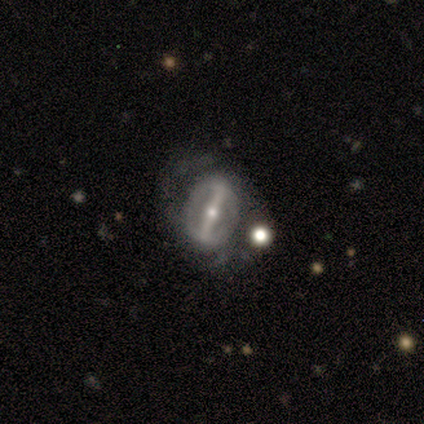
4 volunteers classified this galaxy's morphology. This is clearly a featured or disk galaxy (100%). It is clearly not viewed edge-on (100%). Bar: clearly strong (100%). Spiral arm pattern: possibly yes (50%, tied with no). Spiral arm count: clearly 2 (100%). Spiral winding: possibly medium (50%, tied with loose). Central bulge: possibly moderate (50%, tied with small). Merging: likely none (75%).